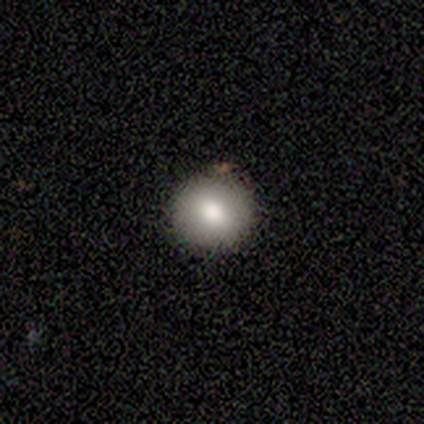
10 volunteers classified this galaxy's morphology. A smooth galaxy with no disk features (70%) that is round (100%).

Vote fractions:
- Smooth or featured? smooth: 70% / featured or disk: 20% / star or artifact: 10%
- How rounded? round: 100% / in between: 0% / cigar-shaped: 0%
- Merging? none: 100% / minor disturbance: 0% / major disturbance: 0% / merger: 0%